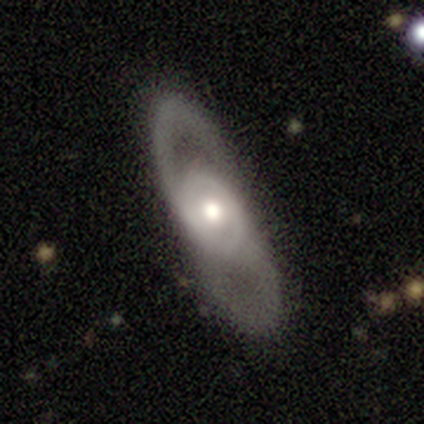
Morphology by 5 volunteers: This appears to be a featured or disk galaxy (80%) with no bar (100%), 2 (100%) loose (100%) spiral arms (67%) and a moderate central bulge (100%). Merging: none (100%).